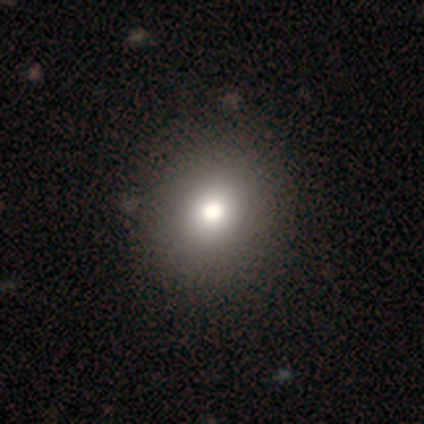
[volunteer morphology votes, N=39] type=smooth (72%); roundness=round (71%); merging=none (65%).